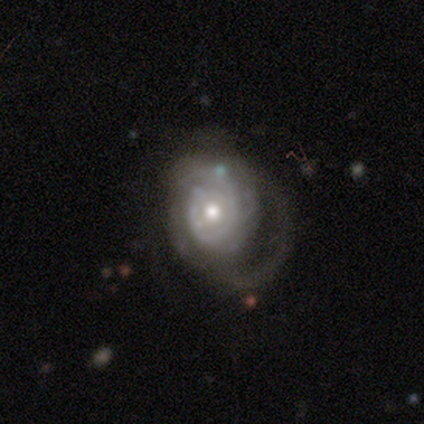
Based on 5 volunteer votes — smooth-or-featured: featured or disk: 100% | smooth: 0% | star or artifact: 0%
  disk-edge-on: no: 100% | yes: 0%
    bar: no: 80% | weak: 20% | strong: 0%
    has-spiral-arms: yes: 100% | no: 0%
      spiral-winding: tight: 100% | medium: 0% | loose: 0%
      spiral-arm-count: can't tell: 80% | 1: 20% | 2: 0% | 3: 0% | 4: 0% | more than 4: 0%
    bulge-size: moderate: 100% | dominant: 0% | large: 0% | small: 0% | none: 0%
  merging: major disturbance: 100% | none: 0% | minor disturbance: 0% | merger: 0%